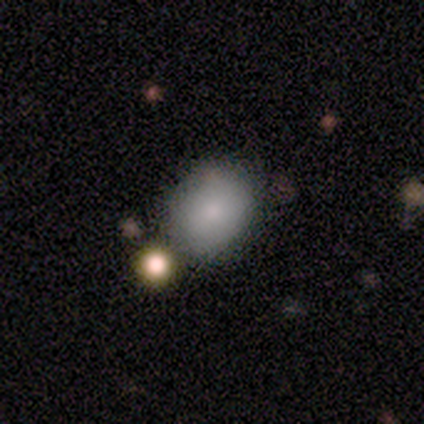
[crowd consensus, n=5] A smooth galaxy with no disk features (100%) that is round (100%). Merging: none (80%).